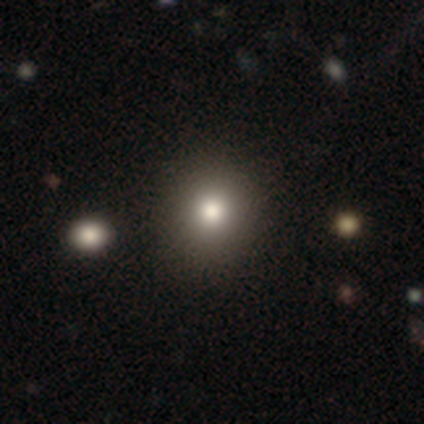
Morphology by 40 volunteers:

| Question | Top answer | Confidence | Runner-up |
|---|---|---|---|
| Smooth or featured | smooth | 85% | star or artifact (12%) |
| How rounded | round | 91% | in between (9%) |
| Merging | none | 74% | minor disturbance (3%) |